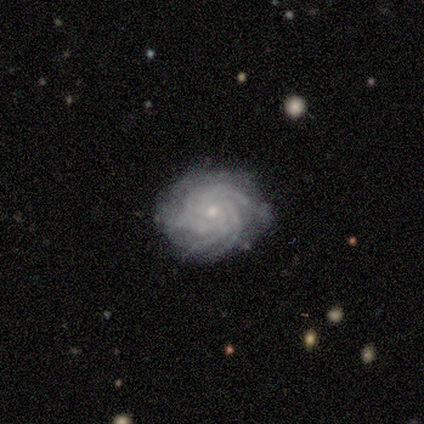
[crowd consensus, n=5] A featured or disk galaxy (100%) with no bar (100%), more than 4 (60%) tight (80%) spiral arms (100%) and a small central bulge (100%).

Vote fractions:
- Smooth or featured? featured or disk: 100% / smooth: 0% / star or artifact: 0%
- Edge-on disk? no: 100% / yes: 0%
- Bar? no: 100% / strong: 0% / weak: 0%
- Spiral arms? yes: 100% / no: 0%
- Spiral winding? tight: 80% / medium: 20% / loose: 0%
- Spiral arm count? more than 4: 60% / 3: 20% / 4: 20% / 1: 0% / 2: 0% / can't tell: 0%
- Bulge size? small: 100% / dominant: 0% / large: 0% / moderate: 0% / none: 0%
- Merging? none: 100% / minor disturbance: 0% / major disturbance: 0% / merger: 0%